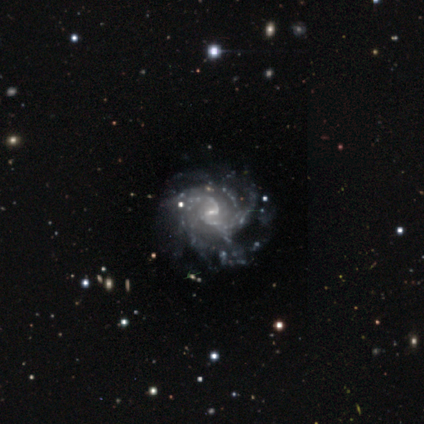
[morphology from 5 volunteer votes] Q: Smooth or featured?
A: featured or disk (100%)
Q: Edge-on disk?
A: no (100%)
Q: Bar?
A: weak (60%); runner-up: no (40%)
Q: Spiral arms?
A: yes (100%)
Q: Spiral winding?
A: tight (60%); runner-up: medium (20%)
Q: Spiral arm count?
A: 2 (40%); tied with: more than 4 (40%)
Q: Bulge size?
A: small (100%)
Q: Merging?
A: none (40%); tied with: minor disturbance (40%)